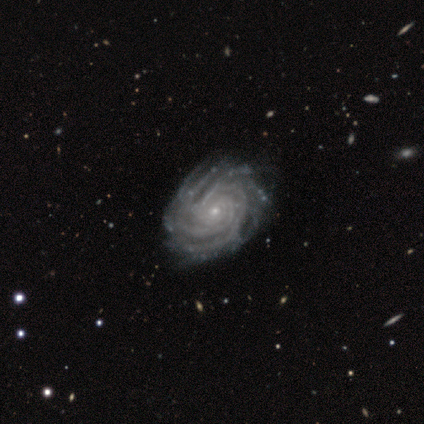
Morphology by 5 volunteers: Q: Smooth or featured?
A: featured or disk (80%); runner-up: smooth (20%)
Q: Edge-on disk?
A: no (75%); runner-up: yes (25%)
Q: Bar?
A: no (100%)
Q: Spiral arms?
A: yes (100%)
Q: Spiral winding?
A: tight (100%)
Q: Spiral arm count?
A: more than 4 (100%)
Q: Bulge size?
A: small (67%); runner-up: moderate (33%)
Q: Merging?
A: none (80%); runner-up: minor disturbance (20%)